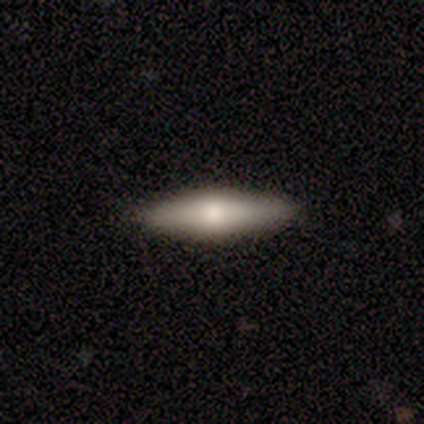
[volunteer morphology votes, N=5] Smooth or featured: smooth — 100%
How rounded: in between — 60% (cigar-shaped — 40%)
Merging: none — 100%